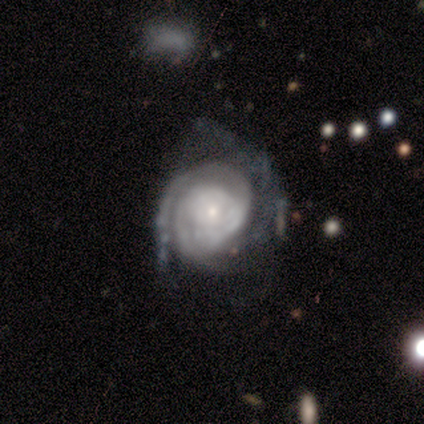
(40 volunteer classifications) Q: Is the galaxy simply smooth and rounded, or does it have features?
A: featured or disk — 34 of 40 (85%).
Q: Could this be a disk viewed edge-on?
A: no — 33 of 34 (97%).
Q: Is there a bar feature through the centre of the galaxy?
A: no — 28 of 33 (85%).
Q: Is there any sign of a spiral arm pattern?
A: yes — 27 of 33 (82%).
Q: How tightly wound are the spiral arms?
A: tight — 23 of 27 (85%).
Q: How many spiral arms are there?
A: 2 — 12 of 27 (44%).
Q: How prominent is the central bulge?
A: small — 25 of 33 (76%).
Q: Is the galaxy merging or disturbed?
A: none — 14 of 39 (36%, tied with major disturbance).